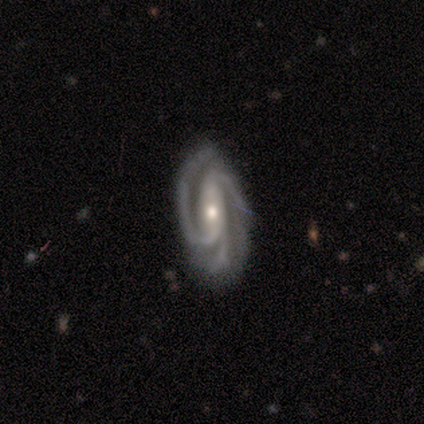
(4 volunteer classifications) featured or disk 100%, smooth 0%, star or artifact 0%. Down the decision tree: edge-on disk — no (100%); bar — weak (75%); spiral arms — yes (100%); spiral arm count — 3 (100%); spiral winding — medium (50%); bulge size — moderate (75%); merging — none (75%).